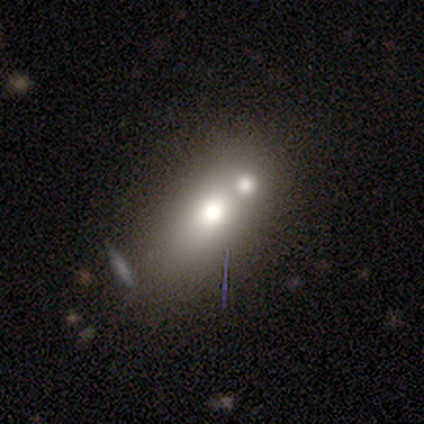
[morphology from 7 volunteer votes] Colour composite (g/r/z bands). It shows a smooth galaxy with no disk features (71%) that is in between round and cigar-shaped (60%). Merging: merger (50%).